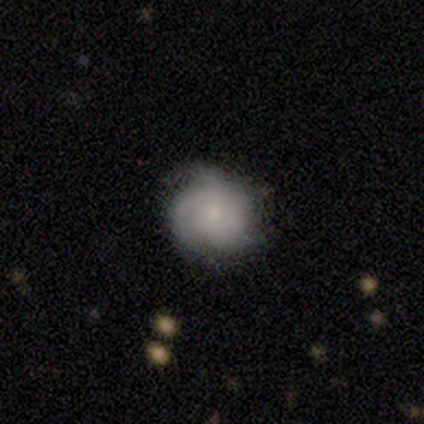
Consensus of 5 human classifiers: This is likely a featured or disk galaxy (60%). It is clearly not viewed edge-on (100%). Bar: clearly no (100%). Spiral arm pattern: likely yes (67%). Spiral arm count: possibly 2 (50%, tied with can't tell). Spiral winding: clearly tight (100%). Central bulge: clearly small (100%). Merging: likely none (60%).